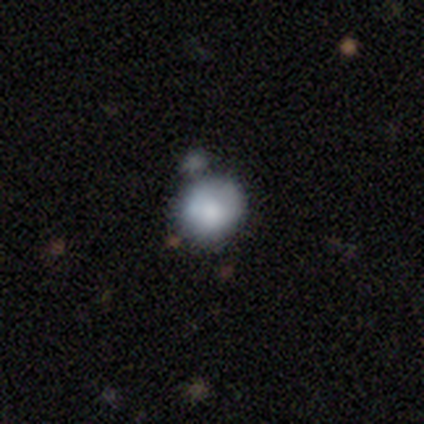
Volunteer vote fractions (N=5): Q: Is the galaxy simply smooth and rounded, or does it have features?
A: smooth — 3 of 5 (60%).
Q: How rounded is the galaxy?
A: round — 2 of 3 (67%).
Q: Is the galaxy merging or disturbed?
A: none — 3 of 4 (75%).